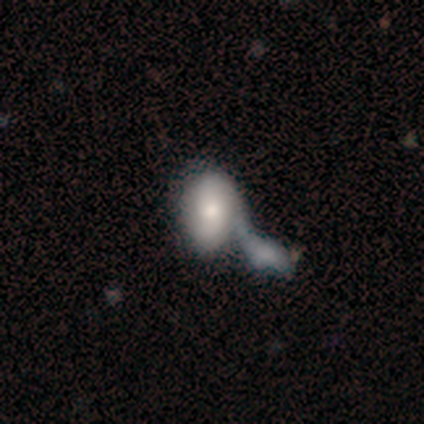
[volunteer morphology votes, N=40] Overall: smooth (57%; featured or disk 38%). How rounded: in between (100%). Merging: merger (53%).